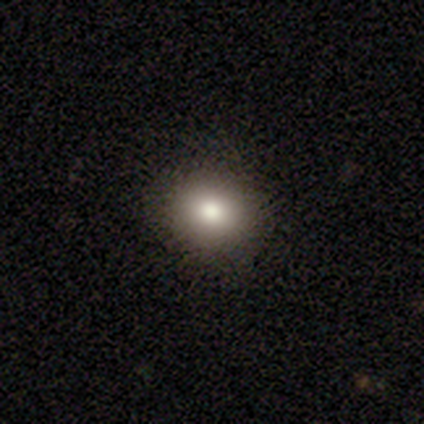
This appears to be a smooth galaxy with no disk features (69%) that is round (74%). Merging: none (90%).